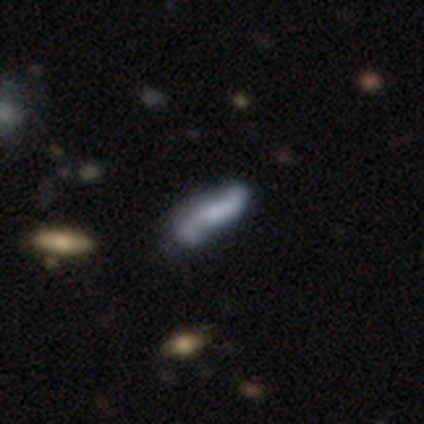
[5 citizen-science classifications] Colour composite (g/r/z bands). It shows a smooth galaxy with no disk features (40%, tied with featured or disk) that is in between round and cigar-shaped (50%, tied with cigar-shaped). Merging: none (75%).